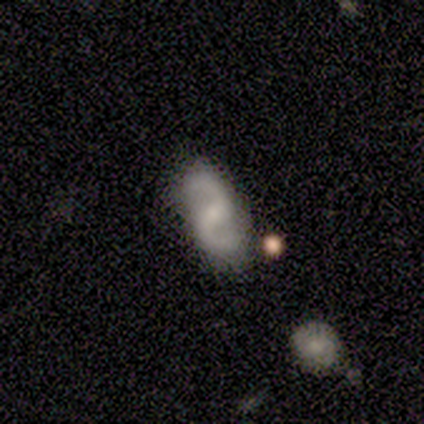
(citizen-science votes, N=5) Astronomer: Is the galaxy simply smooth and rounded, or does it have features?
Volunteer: featured or disk — 100%.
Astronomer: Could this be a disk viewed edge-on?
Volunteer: no — 100%.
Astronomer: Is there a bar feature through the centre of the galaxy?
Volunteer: weak — 60%.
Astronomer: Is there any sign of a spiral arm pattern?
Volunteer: yes — 100%.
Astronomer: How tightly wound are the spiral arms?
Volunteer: loose — 60% (runner-up: medium, 40%).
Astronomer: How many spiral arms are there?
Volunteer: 2 — 100%.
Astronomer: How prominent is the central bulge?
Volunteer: small — 60%.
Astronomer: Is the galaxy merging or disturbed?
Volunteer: none — 100%.